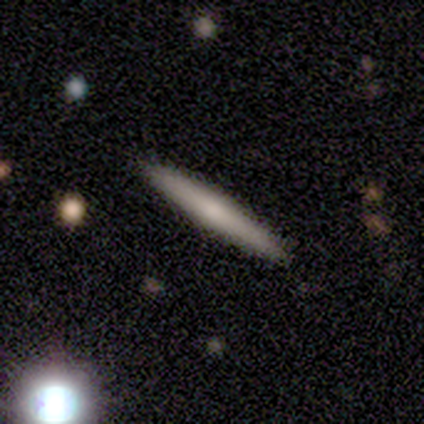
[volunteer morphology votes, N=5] smooth-or-featured: smooth: 60% | featured or disk: 40% | star or artifact: 0%
  how-rounded: cigar-shaped: 100% | round: 0% | in between: 0%
  merging: none: 80% | minor disturbance: 20% | major disturbance: 0% | merger: 0%